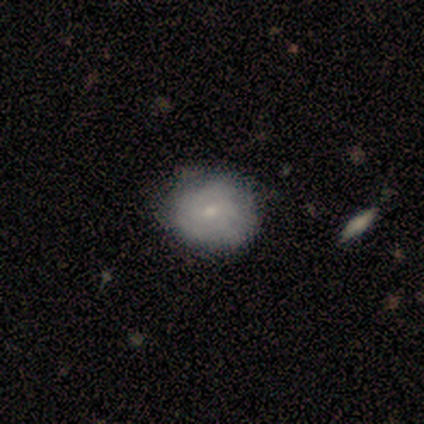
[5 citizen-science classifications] Smooth or featured: featured or disk — 60% (smooth — 40%)
Edge-on disk: no — 100%
Bar: no — 67% (weak — 33%)
Spiral arms: no — 67% (yes — 33%)
Bulge size: moderate — 67% (small — 33%)
Merging: none — 60% (minor disturbance — 40%)